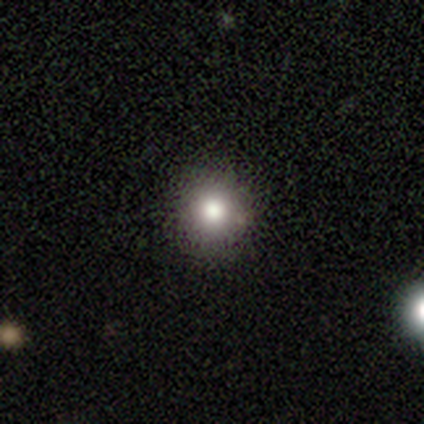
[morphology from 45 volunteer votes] smooth_or_featured: smooth (p=0.78) [alt: star or artifact p=0.20]
how_rounded: round (p=0.94) [alt: in between p=0.06]
merging: none (p=0.97) [alt: minor disturbance p=0.03]